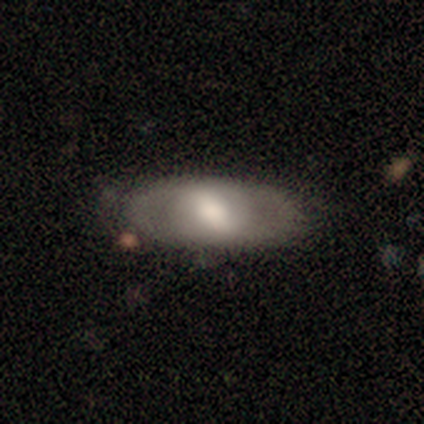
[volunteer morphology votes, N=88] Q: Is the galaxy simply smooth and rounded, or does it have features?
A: featured or disk — 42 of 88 (48%).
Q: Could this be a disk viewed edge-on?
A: no — 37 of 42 (88%).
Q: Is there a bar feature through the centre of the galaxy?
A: strong — 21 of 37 (57%).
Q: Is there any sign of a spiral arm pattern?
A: no — 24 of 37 (65%).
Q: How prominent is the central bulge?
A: moderate — 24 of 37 (65%).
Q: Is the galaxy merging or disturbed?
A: none — 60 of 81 (74%).